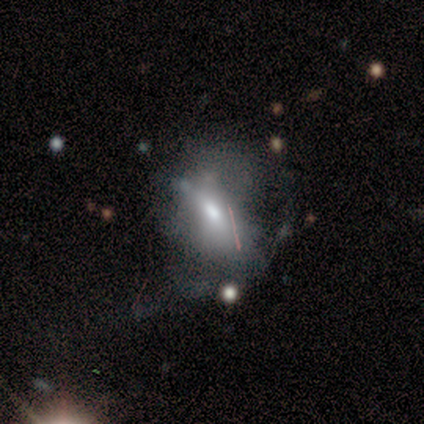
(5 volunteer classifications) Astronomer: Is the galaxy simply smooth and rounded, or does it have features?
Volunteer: smooth — 100%.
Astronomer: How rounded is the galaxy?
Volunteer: in between — 60%.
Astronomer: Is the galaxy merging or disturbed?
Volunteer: minor disturbance — 60%.